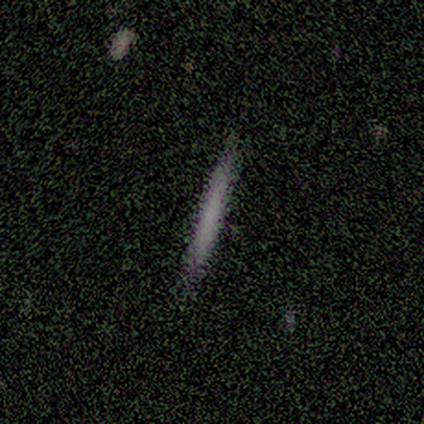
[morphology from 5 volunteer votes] This appears to be a smooth galaxy with no disk features (60%) that is cigar-shaped (100%). Merging: none (100%).